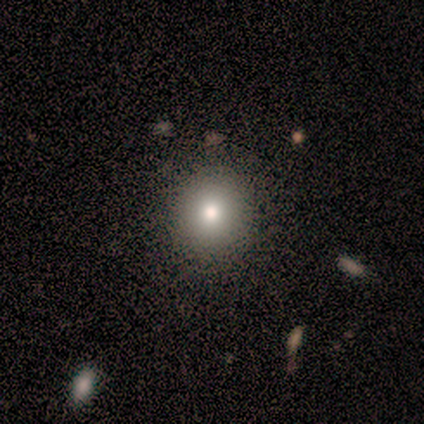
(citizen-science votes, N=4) Smooth or featured: smooth — 75% (star or artifact — 25%)
How rounded: round — 100%
Merging: none — 67% (major disturbance — 33%)